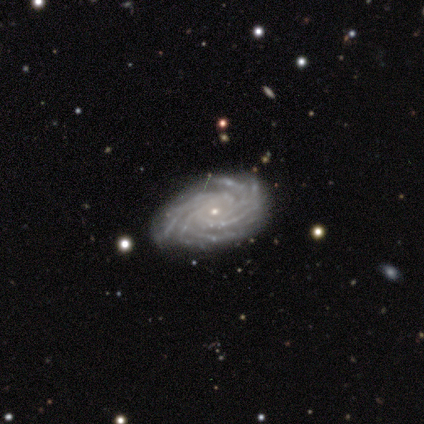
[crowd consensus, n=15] featured or disk 100%, smooth 0%, star or artifact 0%. Down the decision tree: edge-on disk — no (100%); bar — no (80%); spiral arms — yes (100%); spiral arm count — more than 4 (87%); spiral winding — tight (100%); bulge size — small (87%); merging — none (93%).